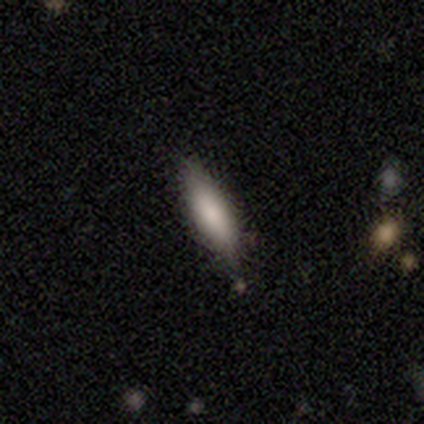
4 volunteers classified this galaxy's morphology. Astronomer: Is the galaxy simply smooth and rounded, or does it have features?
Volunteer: smooth — 100%.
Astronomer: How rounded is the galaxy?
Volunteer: in between — 50%, tied with cigar-shaped at 50%.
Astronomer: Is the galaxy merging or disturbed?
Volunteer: none — 100%.